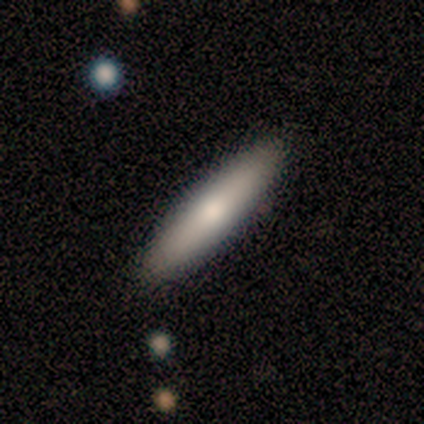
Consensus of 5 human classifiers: Smooth or featured? 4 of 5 (80%) said featured or disk. Edge-on disk? 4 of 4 (100%) said yes. Edge-on bulge? 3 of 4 (75%) said none. Merging? 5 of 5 (100%) said none.